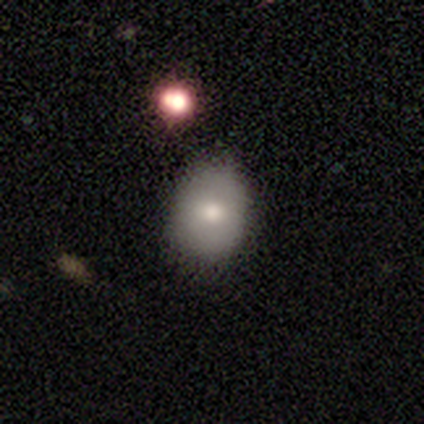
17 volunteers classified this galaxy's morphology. smooth 59%, featured or disk 35%, star or artifact 6%. Down the decision tree: how rounded — round (50%, tied with in between); merging — none (75%).